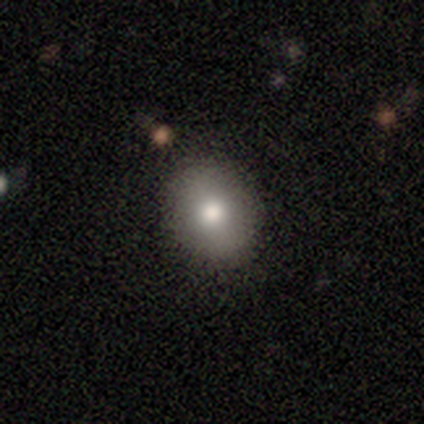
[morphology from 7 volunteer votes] Volunteers were most divided on "how rounded" (2-way tie): round: 50%, in between: 50%, cigar-shaped: 0%. More confident: merging — none (100%); smooth or featured — smooth (86%).